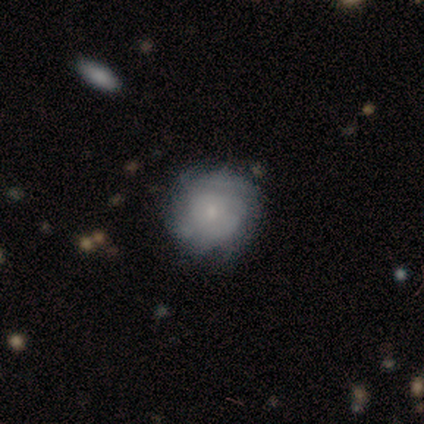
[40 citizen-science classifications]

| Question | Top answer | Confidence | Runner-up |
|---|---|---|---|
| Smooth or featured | smooth | 50% | featured or disk (42%) |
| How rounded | round | 90% | in between (5%) |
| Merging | none | 78% | minor disturbance (11%) |